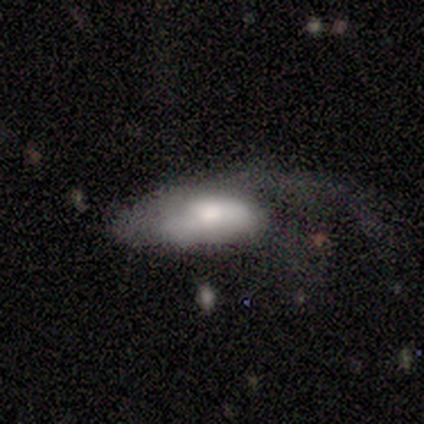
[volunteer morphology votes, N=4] Smooth or featured? smooth (75%)
How rounded? in between (100%)
Merging? major disturbance (75%)